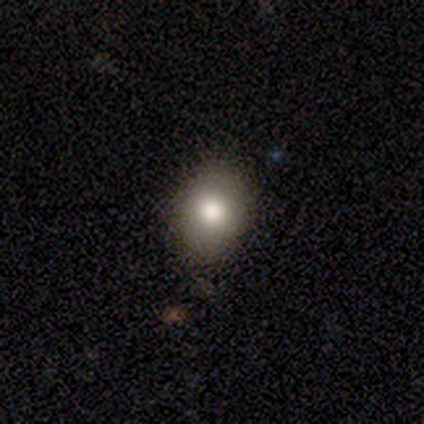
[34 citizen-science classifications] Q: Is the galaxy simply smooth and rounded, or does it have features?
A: smooth — 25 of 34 (74%).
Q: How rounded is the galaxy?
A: in between — 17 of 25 (68%).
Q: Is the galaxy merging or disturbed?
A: none — 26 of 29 (90%).